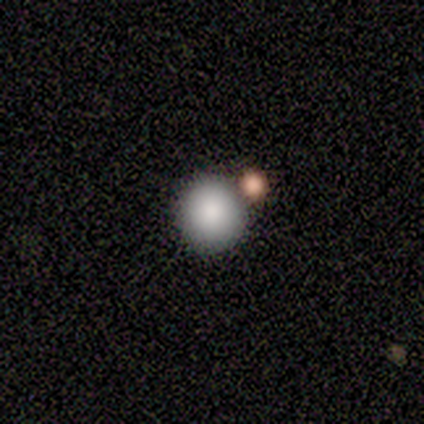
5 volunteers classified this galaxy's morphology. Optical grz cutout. It shows a smooth galaxy with no disk features (60%) that is round (67%). Merging: none (100%).